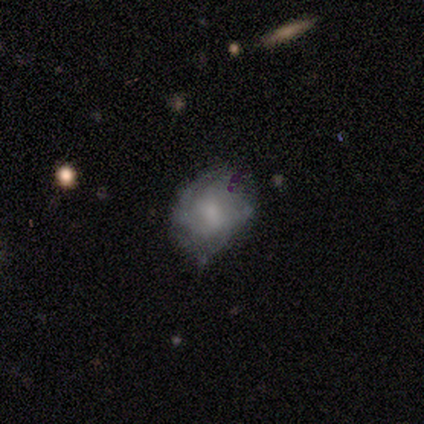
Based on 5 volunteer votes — Overall: smooth (40%, tied with featured or disk). How rounded: round (50%, tied with in between). Merging: none (75%).